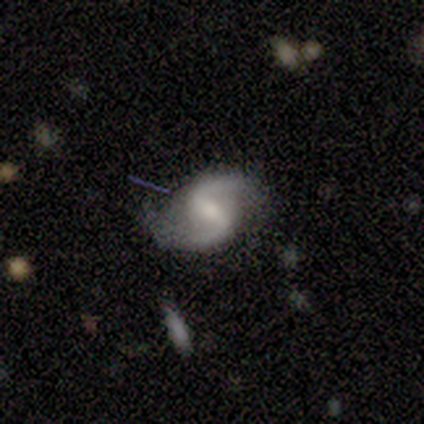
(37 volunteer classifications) Smooth or featured?
  - featured or disk: 89% *
  - star or artifact: 8%
  - smooth: 3%
Edge-on disk?
  - no: 97% *
  - yes: 3%
Bar?
  - weak: 50% *
  - strong: 41%
  - no: 9%
Spiral arms?
  - yes: 94% *
  - no: 6%
Spiral winding?
  - loose: 73% *
  - medium: 27%
  - tight: 0%
Spiral arm count?
  - 2: 97% *
  - can't tell: 3%
  - 1: 0%
  - 3: 0%
  - 4: 0%
  - more than 4: 0%
Bulge size?
  - moderate: 41% * (tied)
  - small: 41% * (tied)
  - large: 12%
  - none: 6%
  - dominant: 0%
Merging?
  - none: 85% *
  - minor disturbance: 15%
  - major disturbance: 0%
  - merger: 0%